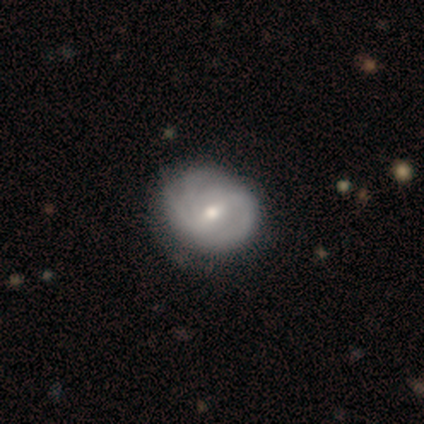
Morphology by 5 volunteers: Q: Smooth or featured?
A: featured or disk (100%)
Q: Edge-on disk?
A: no (100%)
Q: Bar?
A: strong (40%); tied with: weak (40%)
Q: Spiral arms?
A: yes (80%); runner-up: no (20%)
Q: Spiral winding?
A: medium (50%); runner-up: tight (25%)
Q: Spiral arm count?
A: 2 (50%); runner-up: 3 (25%)
Q: Bulge size?
A: small (60%); runner-up: moderate (40%)
Q: Merging?
A: none (80%); runner-up: major disturbance (20%)